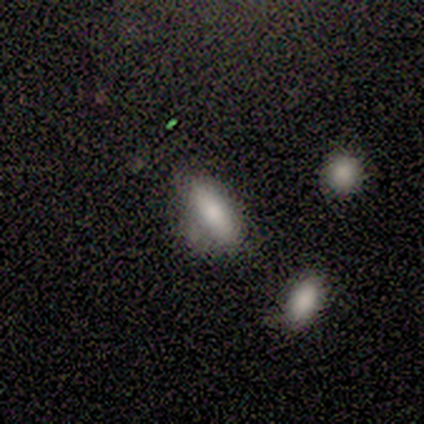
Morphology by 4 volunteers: Q: Smooth or featured?
A: smooth (100%)
Q: How rounded?
A: in between (75%); runner-up: cigar-shaped (25%)
Q: Merging?
A: minor disturbance (75%); runner-up: none (25%)